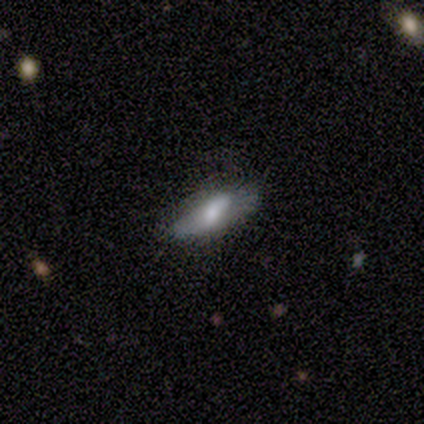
Volunteers were most divided on "smooth or featured": smooth: 60%, featured or disk: 20%, star or artifact: 20%. More confident: how rounded — in between (100%); merging — none (100%).